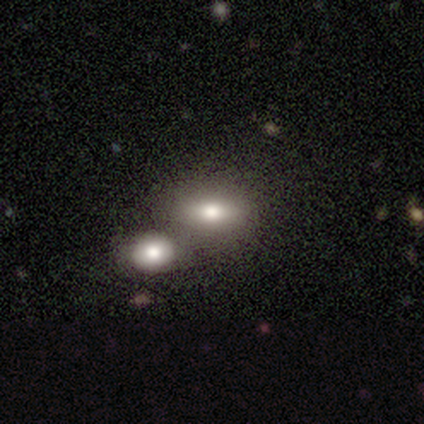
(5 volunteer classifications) Smooth or featured? 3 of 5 (60%) said star or artifact.